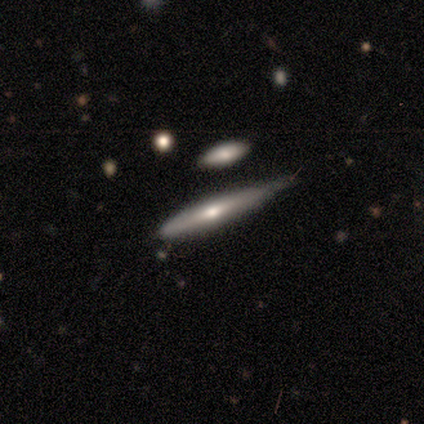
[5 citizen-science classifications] Overall: featured or disk (60%; smooth 40%). Edge-on disk: yes (100%). Edge-on bulge: none (67%; rounded 33%). Merging: minor disturbance (60%; none 40%).